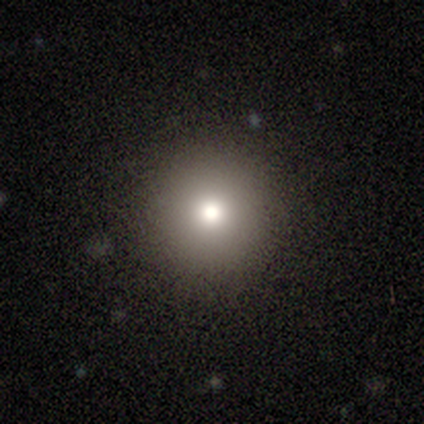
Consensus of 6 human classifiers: smooth-or-featured: smooth: 83% | star or artifact: 17% | featured or disk: 0%
  how-rounded: round: 100% | in between: 0% | cigar-shaped: 0%
  merging: none: 100% | minor disturbance: 0% | major disturbance: 0% | merger: 0%